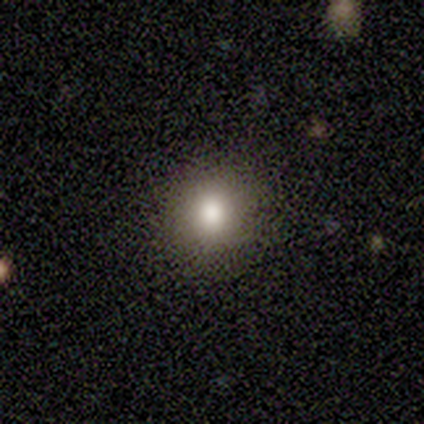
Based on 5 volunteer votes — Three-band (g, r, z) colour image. It shows a smooth galaxy with no disk features (60%) that is round (100%). Merging: none (75%).